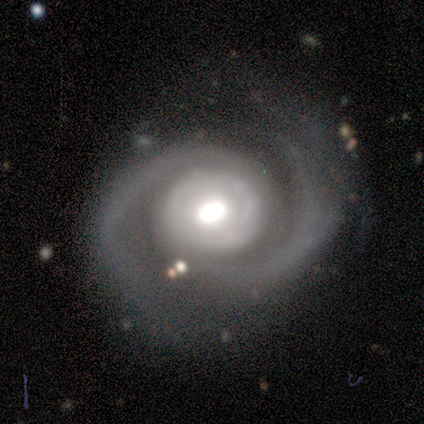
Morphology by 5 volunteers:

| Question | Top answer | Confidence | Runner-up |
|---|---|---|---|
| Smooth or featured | featured or disk | 100% | — |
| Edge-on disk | no | 100% | — |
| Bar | no | 80% | weak (20%) |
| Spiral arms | yes | 100% | — |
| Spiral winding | medium | 60% | tight (20%) |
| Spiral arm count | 2 | 100% | — |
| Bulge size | moderate | 60% | large (40%) |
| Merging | none | 80% | major disturbance (20%) |